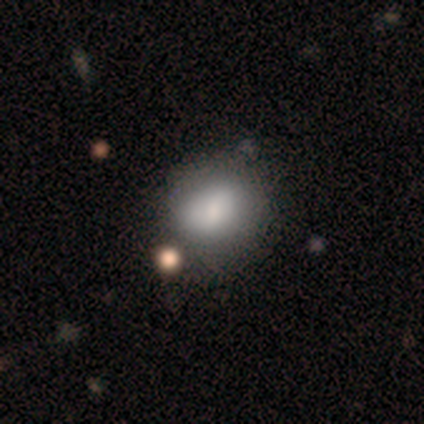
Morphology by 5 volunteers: type=smooth (100%); roundness=round (60%); merging=none (80%).